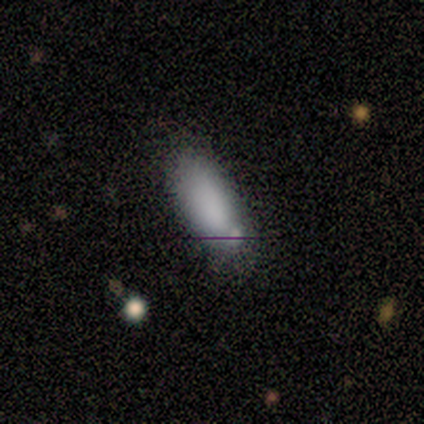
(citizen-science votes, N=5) smooth_or_featured: smooth (p=1.00)
how_rounded: in between (p=0.60) [alt: cigar-shaped p=0.40]
merging: none (p=0.60) [alt: minor disturbance p=0.40]